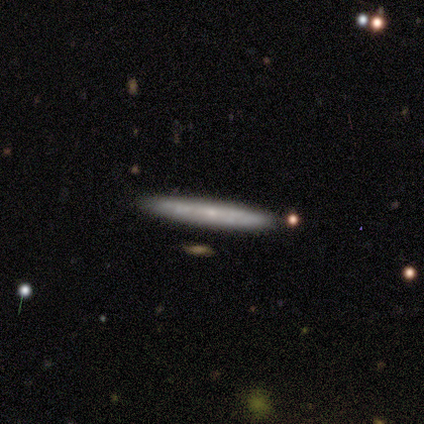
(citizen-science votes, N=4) smooth_or_featured: smooth (p=0.50) [tied with: featured or disk p=0.50]
how_rounded: cigar-shaped (p=1.00)
merging: none (p=1.00)